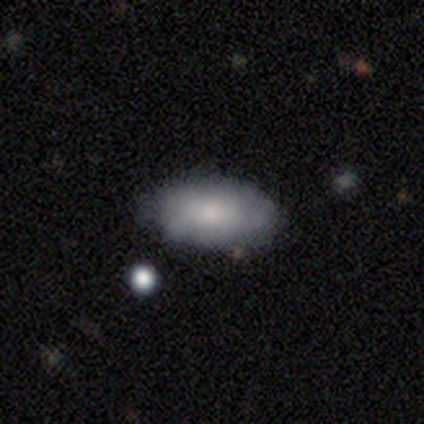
Smooth or featured?
  - smooth: 71% *
  - star or artifact: 16%
  - featured or disk: 13%
How rounded?
  - in between: 93% *
  - round: 4%
  - cigar-shaped: 4%
Merging?
  - none: 72% *
  - minor disturbance: 22%
  - major disturbance: 3%
  - merger: 3%